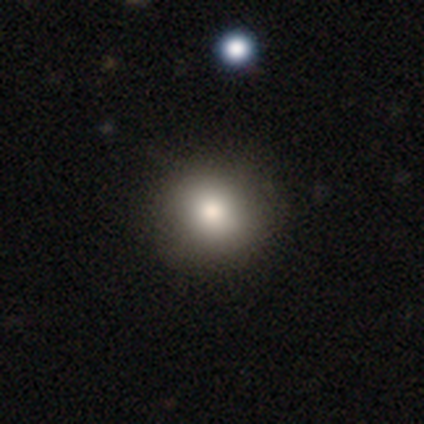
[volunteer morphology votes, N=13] Volunteers were most divided on "how rounded": round: 92%, in between: 8%, cigar-shaped: 0%. More confident: merging — none (100%); smooth or featured — smooth (92%).